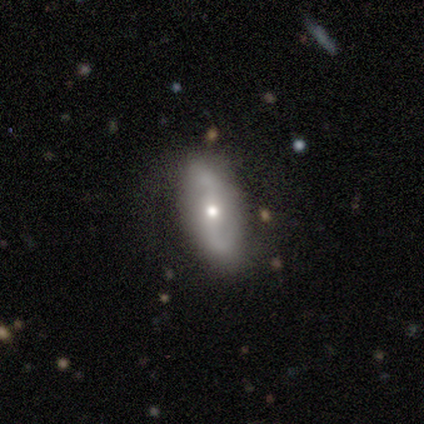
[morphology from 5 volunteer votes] Smooth or featured?
  - featured or disk: 100% *
  - smooth: 0%
  - star or artifact: 0%
Edge-on disk?
  - no: 100% *
  - yes: 0%
Bar?
  - strong: 40% * (tied)
  - no: 40% * (tied)
  - weak: 20%
Spiral arms?
  - yes: 80% *
  - no: 20%
Spiral winding?
  - tight: 50% * (tied)
  - loose: 50% * (tied)
  - medium: 0%
Spiral arm count?
  - 2: 100% *
  - 1: 0%
  - 3: 0%
  - 4: 0%
  - more than 4: 0%
  - can't tell: 0%
Bulge size?
  - small: 60% *
  - moderate: 40%
  - dominant: 0%
  - large: 0%
  - none: 0%
Merging?
  - none: 100% *
  - minor disturbance: 0%
  - major disturbance: 0%
  - merger: 0%